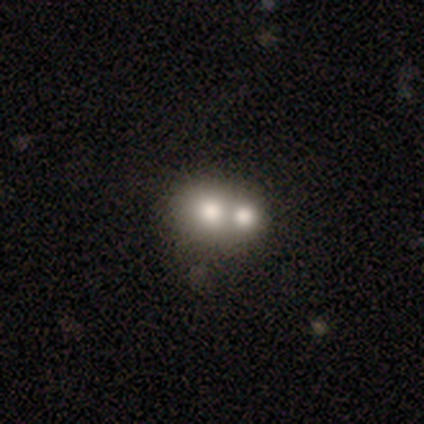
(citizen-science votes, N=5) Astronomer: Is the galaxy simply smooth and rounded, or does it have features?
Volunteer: smooth — 100%.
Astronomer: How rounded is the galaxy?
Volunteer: round — 60% (runner-up: in between, 40%).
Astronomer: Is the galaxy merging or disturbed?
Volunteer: merger — 100%.